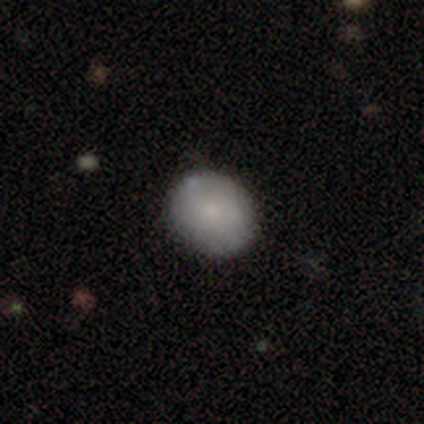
This appears to be a smooth galaxy with no disk features (71%) that is round (71%). Merging: none (50%).